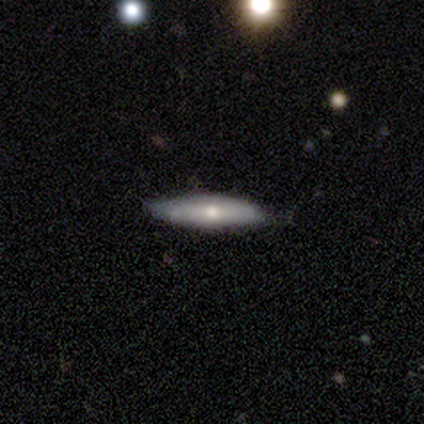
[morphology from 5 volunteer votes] A smooth galaxy with no disk features (60%) that is cigar-shaped (100%). Merging: none (100%).